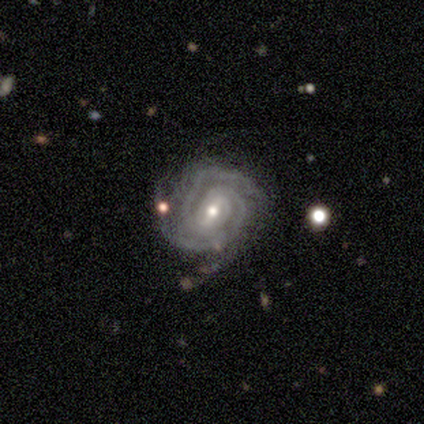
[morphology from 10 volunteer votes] This appears to be a featured or disk galaxy (100%) with a weak bar (70%), 3 (50%) tight (80%) spiral arms (100%) and a small central bulge (70%). Merging: none (60%).